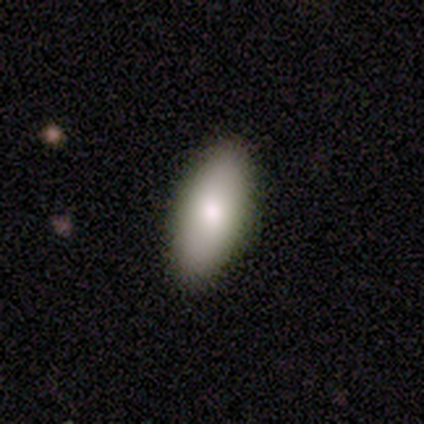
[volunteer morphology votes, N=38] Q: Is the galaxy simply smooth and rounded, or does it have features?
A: smooth — 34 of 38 (89%).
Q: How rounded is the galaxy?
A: in between — 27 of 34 (79%).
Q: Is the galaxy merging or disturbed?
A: none — 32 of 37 (86%).